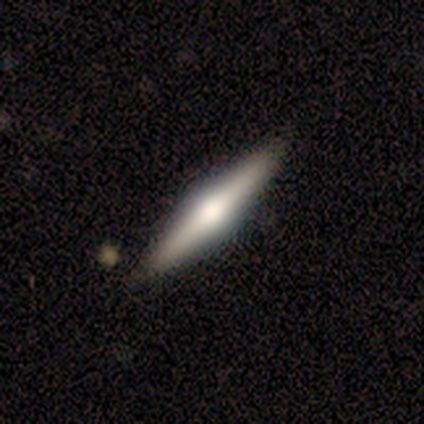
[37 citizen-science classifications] A featured or disk galaxy (59%) viewed edge-on (100%) with a rounded central bulge (82%).

Vote fractions:
- Smooth or featured? featured or disk: 59% / smooth: 32% / star or artifact: 8%
- Edge-on disk? yes: 100% / no: 0%
- Edge-on bulge? rounded: 82% / boxy: 14% / none: 5%
- Merging? none: 97% / minor disturbance: 3% / major disturbance: 0% / merger: 0%